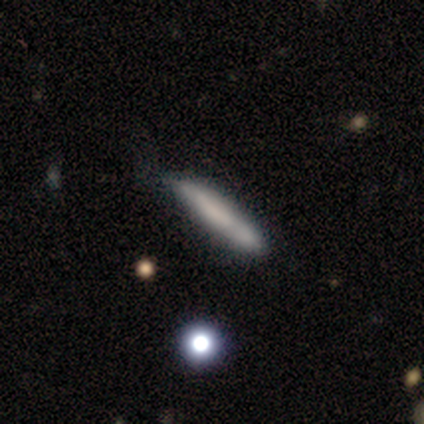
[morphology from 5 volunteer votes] Q: Smooth or featured?
A: smooth (100%)
Q: How rounded?
A: cigar-shaped (100%)
Q: Merging?
A: minor disturbance (60%); runner-up: none (40%)